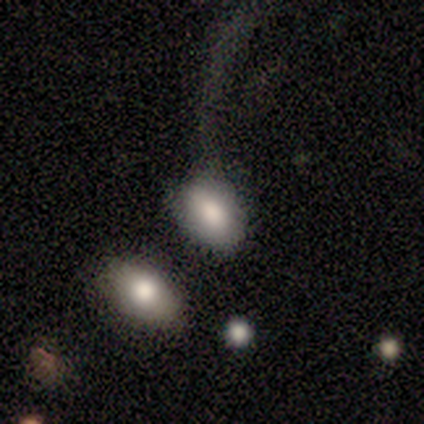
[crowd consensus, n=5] This is clearly a smooth galaxy (100%). How rounded: clearly in between (80%). Merging: likely none (60%).